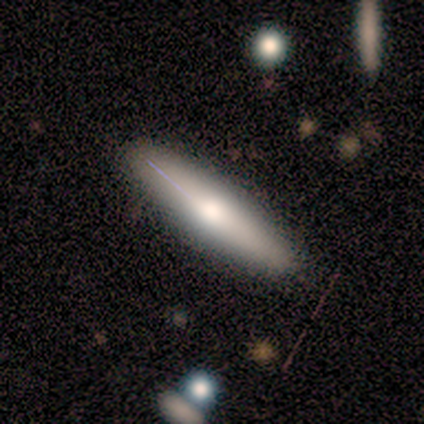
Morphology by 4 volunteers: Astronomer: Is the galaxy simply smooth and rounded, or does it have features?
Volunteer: smooth — 75%.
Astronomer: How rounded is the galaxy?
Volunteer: cigar-shaped — 100%.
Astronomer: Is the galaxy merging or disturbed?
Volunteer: none — 100%.